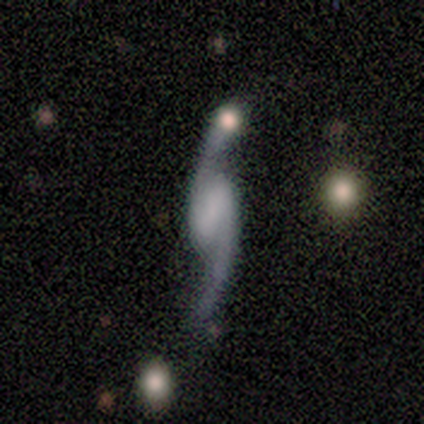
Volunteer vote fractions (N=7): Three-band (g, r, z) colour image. It shows a featured or disk galaxy (100%) with a weak bar (57%), 2 (100%) loose (86%) spiral arms (100%) and no central bulge (71%). Merging: none (86%).